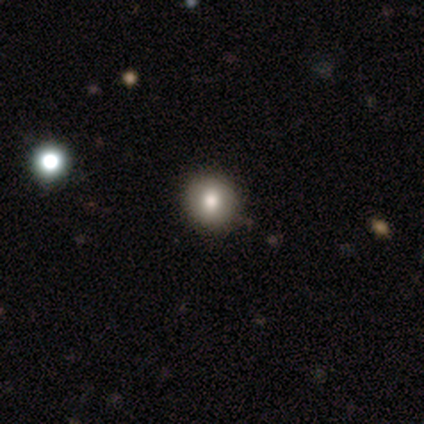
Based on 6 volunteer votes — smooth-or-featured: smooth: 100% | featured or disk: 0% | star or artifact: 0%
  how-rounded: round: 100% | in between: 0% | cigar-shaped: 0%
  merging: none: 100% | minor disturbance: 0% | major disturbance: 0% | merger: 0%